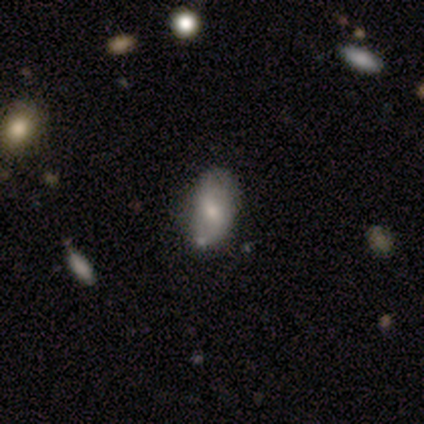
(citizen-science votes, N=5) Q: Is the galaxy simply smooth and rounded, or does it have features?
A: featured or disk — 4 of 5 (80%).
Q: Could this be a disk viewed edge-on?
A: no — 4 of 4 (100%).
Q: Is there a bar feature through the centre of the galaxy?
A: no — 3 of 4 (75%).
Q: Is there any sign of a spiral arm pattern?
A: no — 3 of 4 (75%).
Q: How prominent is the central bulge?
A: small — 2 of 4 (50%).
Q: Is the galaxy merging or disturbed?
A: minor disturbance — 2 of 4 (50%).